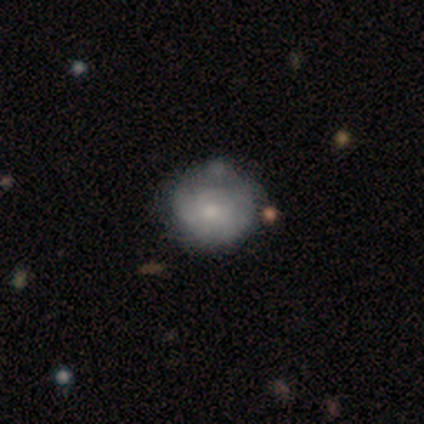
smooth-or-featured: smooth: 58% | featured or disk: 33% | star or artifact: 8%
  how-rounded: round: 71% | in between: 29% | cigar-shaped: 0%
  merging: none: 39% | minor disturbance: 33% | major disturbance: 3% | merger: 0%